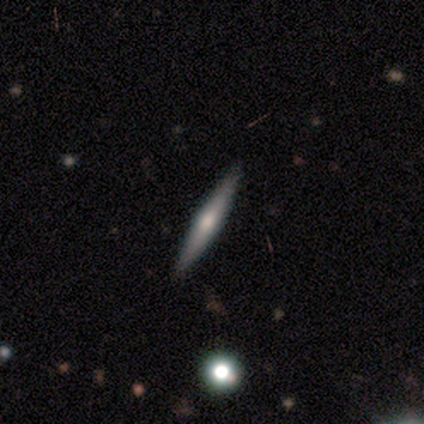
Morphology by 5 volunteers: Smooth or featured: featured or disk — 60% (smooth — 40%)
Edge-on disk: yes — 100%
Edge-on bulge: rounded — 100%
Merging: none — 100%